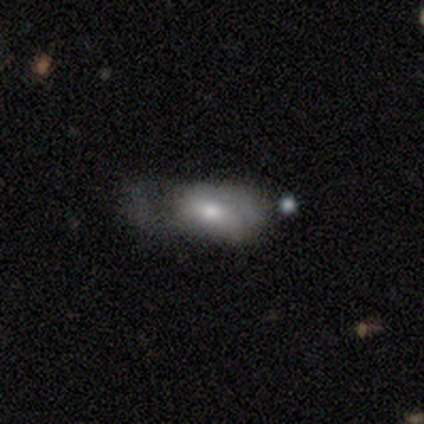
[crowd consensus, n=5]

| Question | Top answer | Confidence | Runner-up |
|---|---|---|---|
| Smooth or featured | smooth | 80% | featured or disk (20%) |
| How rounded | in between | 75% | cigar-shaped (25%) |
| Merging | none | 40% | tied: minor disturbance (40%) |